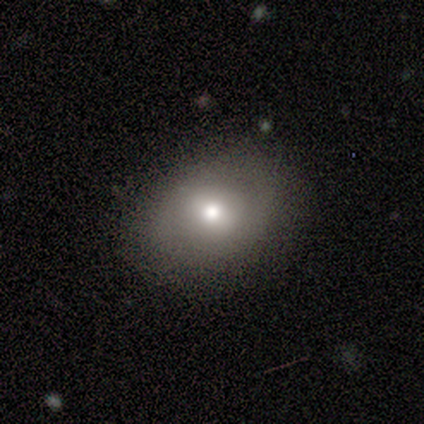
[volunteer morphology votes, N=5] Overall: featured or disk (60%; smooth 40%). Edge-on disk: no (100%). Bar: strong (67%; no 33%). Spiral arms: no (67%; yes 33%). Bulge size: moderate (100%). Merging: none (100%).